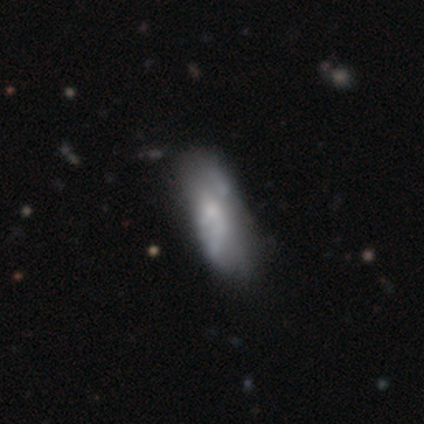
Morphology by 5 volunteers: Volunteers were most divided on "spiral winding" (2-way tie): medium: 50%, loose: 50%, tight: 0%; "spiral arm count" (2-way tie): 2: 50%, can't tell: 50%, 1: 0%, 3: 0%, 4: 0%, more than 4: 0%. More confident: edge-on disk — no (100%); bar — weak (67%); spiral arms — yes (67%); bulge size — small (67%); smooth or featured — featured or disk (60%); merging — minor disturbance (60%).